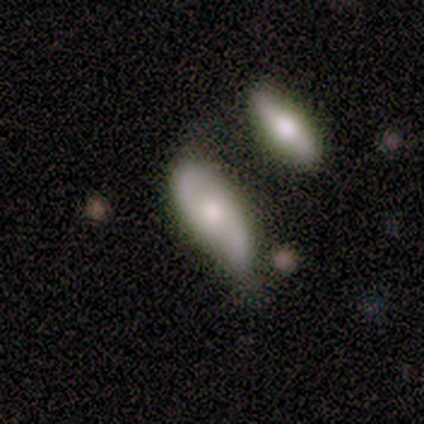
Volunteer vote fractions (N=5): Smooth or featured: featured or disk — 60% (smooth — 40%)
Edge-on disk: no — 100%
Bar: no — 100%
Spiral arms: yes — 100%
Spiral winding: tight — 33% (tied with medium — 33%; loose — 33%)
Spiral arm count: 2 — 100%
Bulge size: large — 67% (moderate — 33%)
Merging: minor disturbance — 60% (major disturbance — 20%)